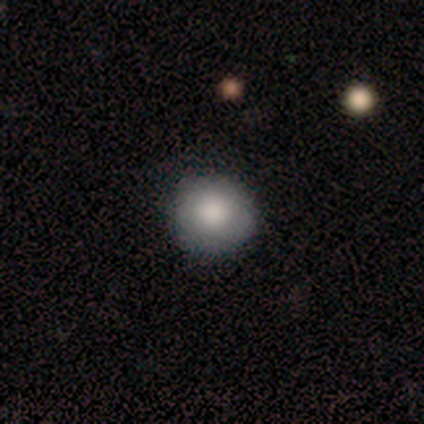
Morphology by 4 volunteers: Q: Smooth or featured?
A: smooth (100%)
Q: How rounded?
A: round (100%)
Q: Merging?
A: none (100%)